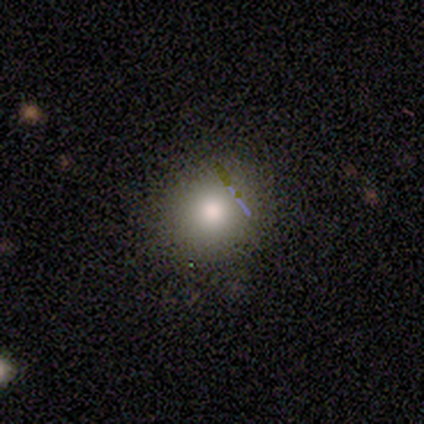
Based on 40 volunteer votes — smooth_or_featured: smooth (p=0.75) [alt: star or artifact p=0.23]
how_rounded: round (p=0.90) [alt: in between p=0.10]
merging: none (p=0.90) [alt: minor disturbance p=0.10]